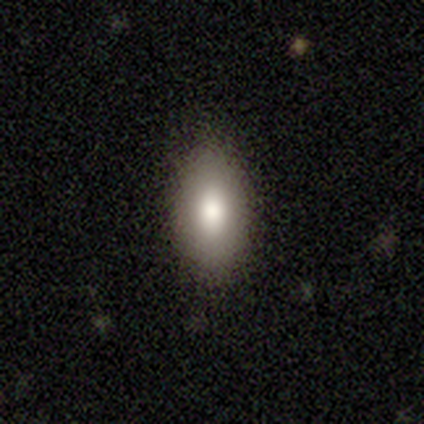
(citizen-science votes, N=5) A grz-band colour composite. It shows a smooth galaxy with no disk features (40%, tied with star or artifact) that is in between round and cigar-shaped (100%). Merging: none (100%).